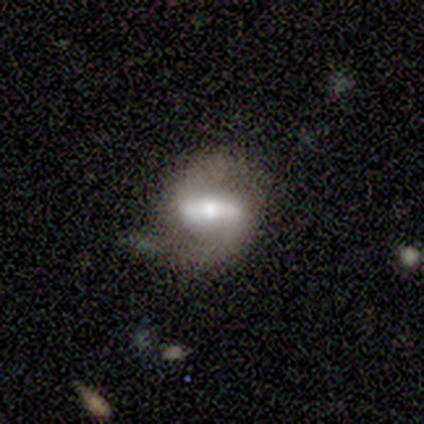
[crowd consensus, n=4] smooth_or_featured: featured or disk (p=1.00)
disk_edge_on: no (p=1.00)
bar: strong (p=0.75) [alt: no p=0.25]
has_spiral_arms: yes (p=1.00)
spiral_winding: medium (p=0.50) [alt: tight p=0.25]
spiral_arm_count: 2 (p=0.75) [alt: 1 p=0.25]
bulge_size: moderate (p=0.50) [alt: small p=0.25]
merging: none (p=1.00)